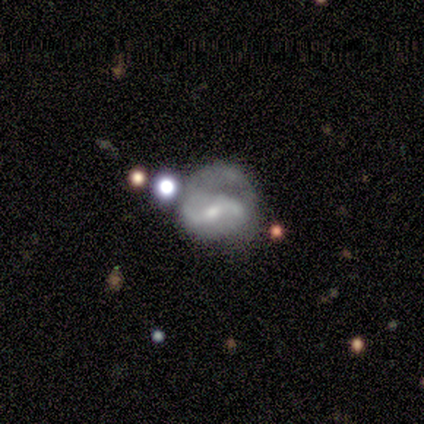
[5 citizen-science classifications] A featured or disk galaxy (80%) with a weak bar (67%), 2 (67%) loose (67%) spiral arms (100%) and a small central bulge (67%). Merging: none (50%).